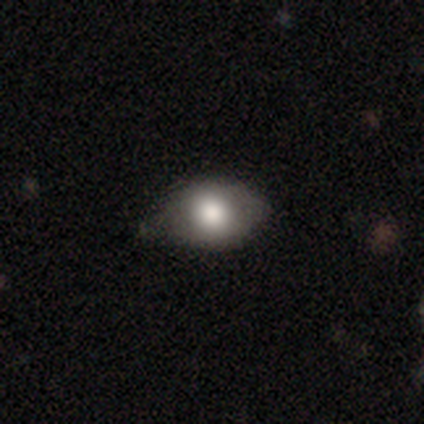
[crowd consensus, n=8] Overall: smooth (75%). How rounded: in between (100%). Merging: none (75%).